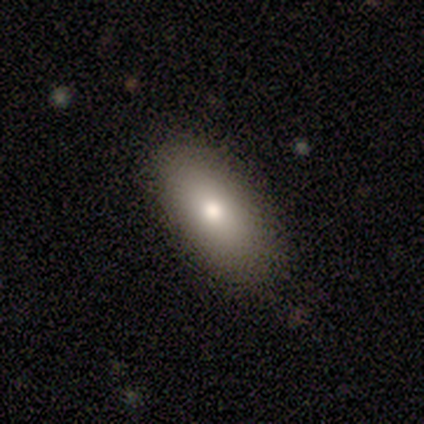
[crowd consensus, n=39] smooth-or-featured: smooth: 79% | featured or disk: 15% | star or artifact: 5%
  how-rounded: in between: 81% | cigar-shaped: 13% | round: 6%
  merging: none: 84% | minor disturbance: 14% | merger: 3% | major disturbance: 0%